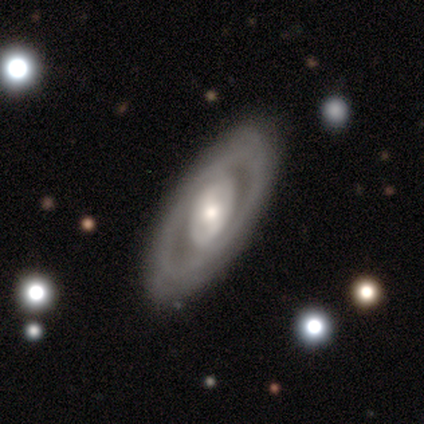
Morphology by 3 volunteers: Volunteers were most divided on "bulge size" (3-way tie): moderate: 33%, small: 33%, none: 33%, dominant: 0%, large: 0%. More confident: smooth or featured — featured or disk (100%); edge-on disk — no (100%); merging — none (100%); bar — no (67%); spiral arms — no (67%).